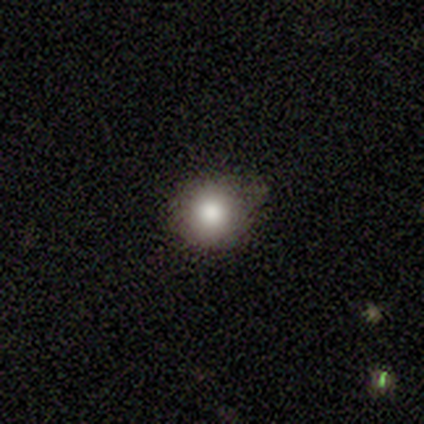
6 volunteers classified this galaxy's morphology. Smooth or featured? 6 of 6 (100%) said smooth. How rounded? 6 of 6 (100%) said round. Merging? 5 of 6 (83%) said none.